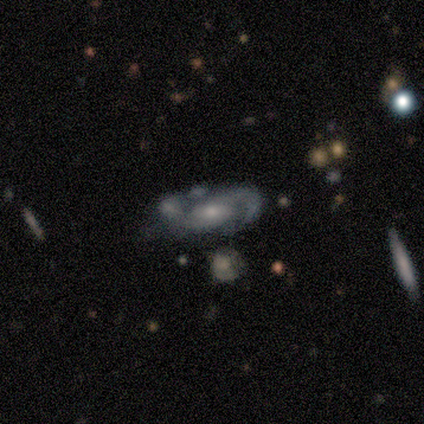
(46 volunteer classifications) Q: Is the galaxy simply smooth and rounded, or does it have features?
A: featured or disk — 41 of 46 (89%).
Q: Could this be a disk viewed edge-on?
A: no — 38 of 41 (93%).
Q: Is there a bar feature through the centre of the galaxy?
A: no — 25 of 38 (66%).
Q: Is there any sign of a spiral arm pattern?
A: yes — 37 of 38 (97%).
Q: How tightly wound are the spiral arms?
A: medium — 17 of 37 (46%).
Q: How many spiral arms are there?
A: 2 — 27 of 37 (73%).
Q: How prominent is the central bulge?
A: moderate — 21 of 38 (55%).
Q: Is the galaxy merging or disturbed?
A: none — 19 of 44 (43%).